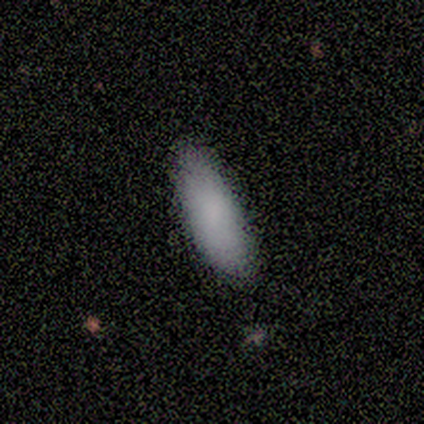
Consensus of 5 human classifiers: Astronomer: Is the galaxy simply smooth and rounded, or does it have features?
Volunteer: smooth — 100%.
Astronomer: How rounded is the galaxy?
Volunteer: in between — 60% (runner-up: cigar-shaped, 40%).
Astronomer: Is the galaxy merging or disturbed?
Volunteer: none — 60% (runner-up: minor disturbance, 40%).